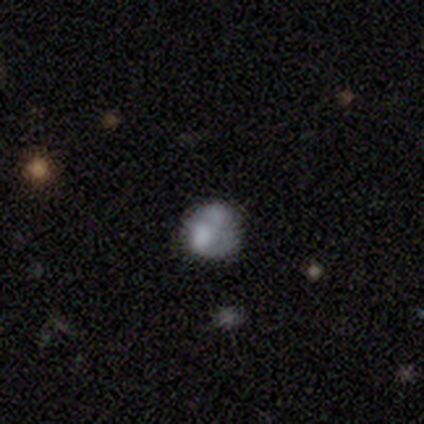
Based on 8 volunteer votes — Morphology: type=smooth (62%); roundness=round (80%); merging=none (43%, tied with merger).